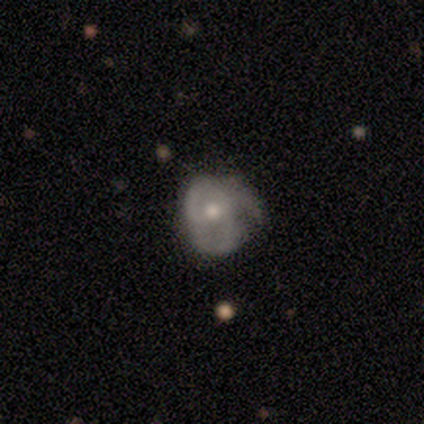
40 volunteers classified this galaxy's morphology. featured or disk 62%, smooth 38%, star or artifact 0%. Down the decision tree: edge-on disk — no (100%); bar — no (72%); spiral arms — yes (88%); spiral arm count — 3 (68%); spiral winding — medium (45%); bulge size — moderate (72%); merging — none (28%).